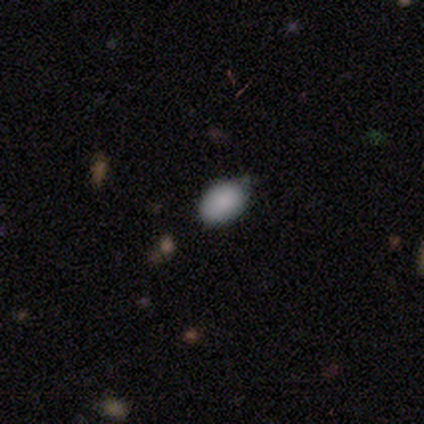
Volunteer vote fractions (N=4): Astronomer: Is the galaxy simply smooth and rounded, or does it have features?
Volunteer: smooth — 100%.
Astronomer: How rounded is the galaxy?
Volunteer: in between — 100%.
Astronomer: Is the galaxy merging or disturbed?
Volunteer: none — 75%.